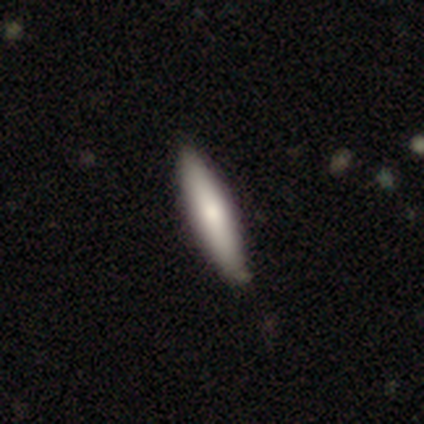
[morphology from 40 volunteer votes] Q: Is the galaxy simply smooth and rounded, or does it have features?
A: smooth — 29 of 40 (72%).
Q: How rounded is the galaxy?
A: cigar-shaped — 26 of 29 (90%).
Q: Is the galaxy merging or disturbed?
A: none — 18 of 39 (46%).